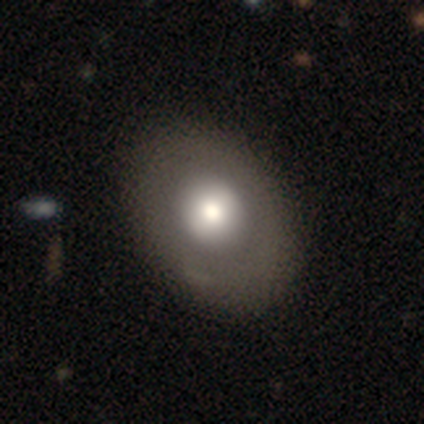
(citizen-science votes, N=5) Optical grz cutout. It shows a smooth galaxy with no disk features (80%) that is round (50%, tied with in between). Merging: none (60%).